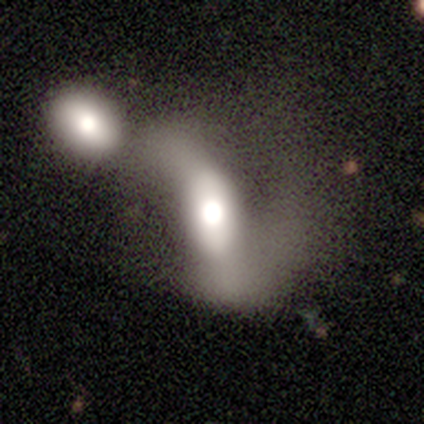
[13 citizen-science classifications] smooth_or_featured: featured or disk (p=0.54) [alt: smooth p=0.38]
disk_edge_on: no (p=0.86) [alt: yes p=0.14]
bar: strong (p=0.50) [alt: no p=0.33]
has_spiral_arms: yes (p=0.67) [alt: no p=0.33]
spiral_winding: loose (p=0.75) [alt: tight p=0.25]
spiral_arm_count: 2 (p=1.00)
bulge_size: large (p=0.67) [alt: dominant p=0.17]
merging: merger (p=0.50) [alt: major disturbance p=0.25]